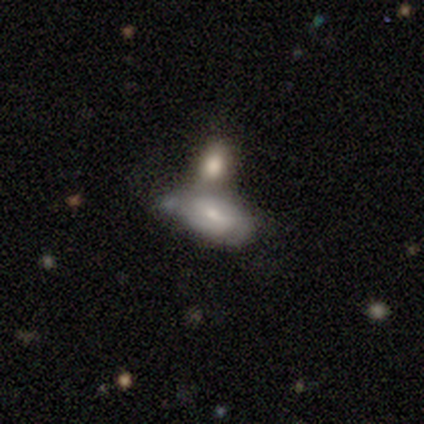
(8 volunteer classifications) This is possibly a smooth galaxy (50%, tied with featured or disk). How rounded: clearly in between (100%). Merging: likely merger (62%).